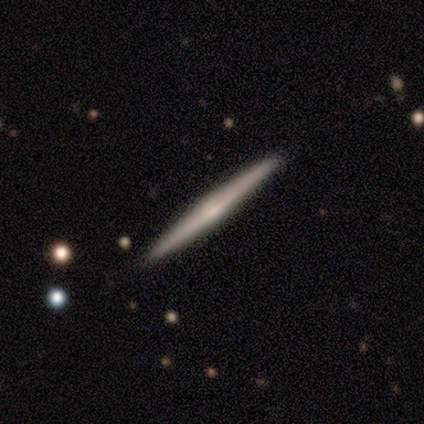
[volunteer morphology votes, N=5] smooth-or-featured: featured or disk: 60% | smooth: 40% | star or artifact: 0%
  disk-edge-on: yes: 100% | no: 0%
    edge-on-bulge: rounded: 67% | none: 33% | boxy: 0%
  merging: none: 100% | minor disturbance: 0% | major disturbance: 0% | merger: 0%